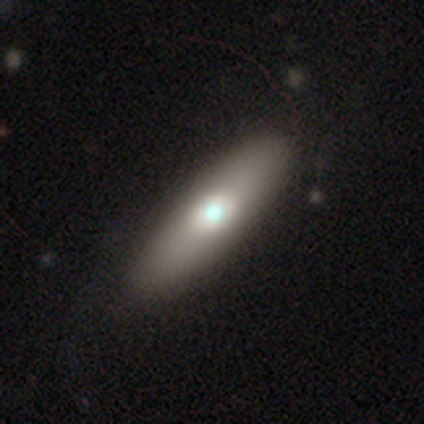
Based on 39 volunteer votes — Overall: smooth (69%). How rounded: cigar-shaped (56%; in between 44%). Merging: none (53%).